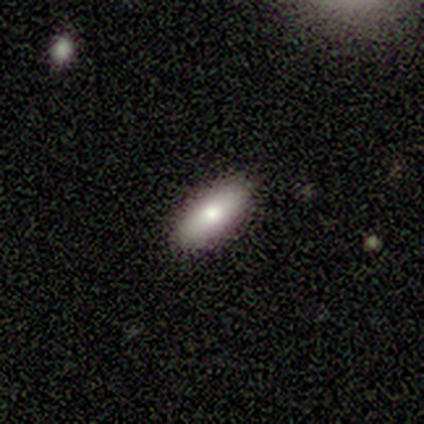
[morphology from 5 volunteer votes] Smooth or featured? 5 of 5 (100%) said smooth. How rounded? 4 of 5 (80%) said in between. Merging? 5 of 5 (100%) said none.